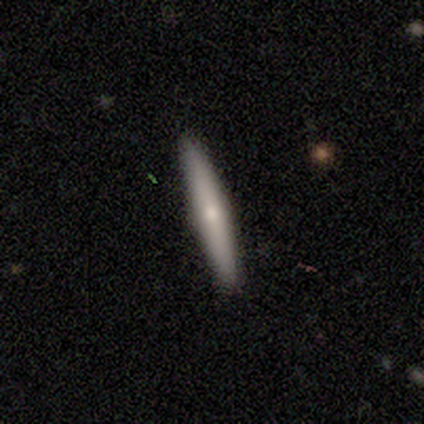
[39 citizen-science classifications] Smooth or featured? 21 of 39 (54%) said featured or disk. Edge-on disk? 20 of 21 (95%) said yes. Edge-on bulge? 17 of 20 (85%) said rounded. Merging? 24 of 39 (62%) said none.